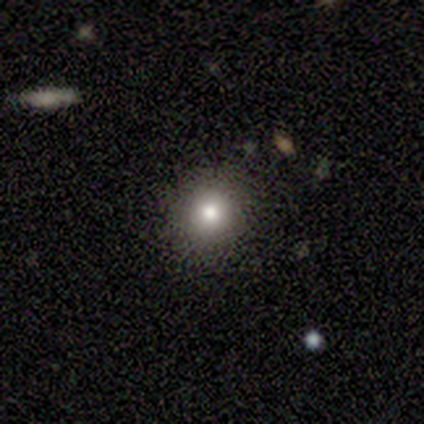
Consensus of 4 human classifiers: A smooth galaxy with no disk features (100%) that is round (100%). Merging: none (100%).